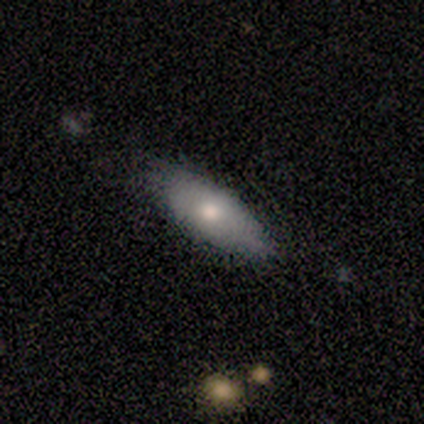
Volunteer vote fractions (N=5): This is clearly a smooth galaxy (100%). How rounded: clearly in between (80%). Merging: clearly none (80%).